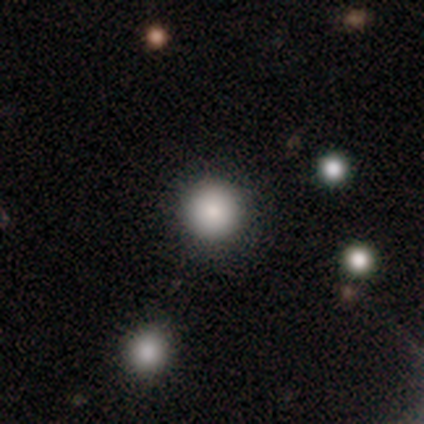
Smooth or featured? 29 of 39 (74%) said smooth. How rounded? 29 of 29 (100%) said round. Merging? 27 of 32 (84%) said none.